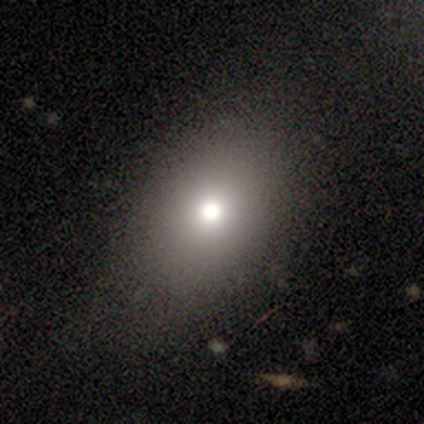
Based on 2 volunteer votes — Smooth or featured: smooth — 50% (tied with star or artifact — 50%)
How rounded: in between — 100%
Merging: none — 100%